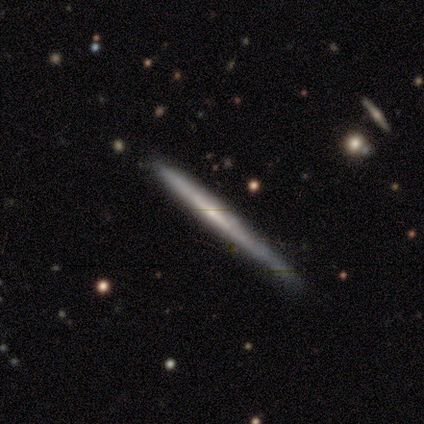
Smooth or featured: smooth — 50% (tied with featured or disk — 50%)
How rounded: cigar-shaped — 100%
Merging: none — 75% (minor disturbance — 25%)